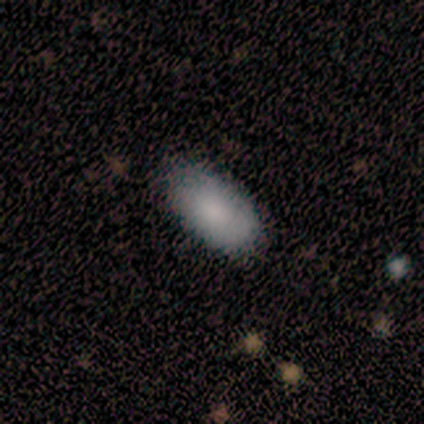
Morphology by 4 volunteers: This is clearly a smooth galaxy (100%). How rounded: clearly in between (100%). Merging: likely none (75%).